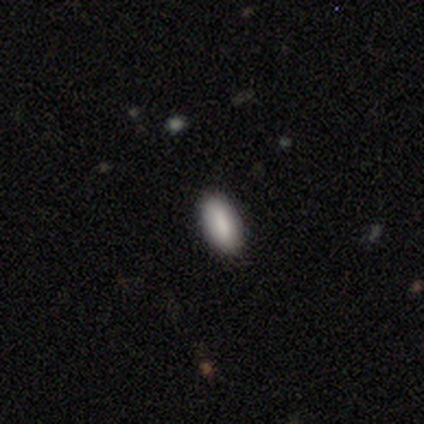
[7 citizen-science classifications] Smooth or featured? smooth (57%)
How rounded? in between (75%)
Merging? none (80%)